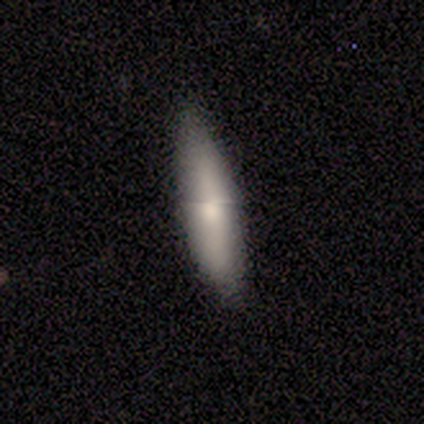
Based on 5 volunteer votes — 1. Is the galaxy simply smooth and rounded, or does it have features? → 60% smooth, 40% featured or disk, 0% star or artifact.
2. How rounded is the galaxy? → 100% cigar-shaped, 0% round, 0% in between.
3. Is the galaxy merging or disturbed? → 60% none, 40% minor disturbance, 0% major disturbance, 0% merger.